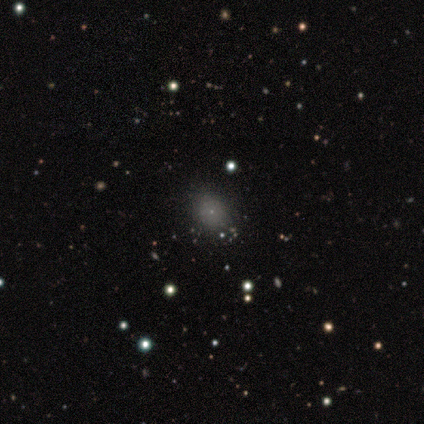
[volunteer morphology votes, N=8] This appears to be a smooth galaxy with no disk features (75%) that is round (67%). Merging: minor disturbance (57%).